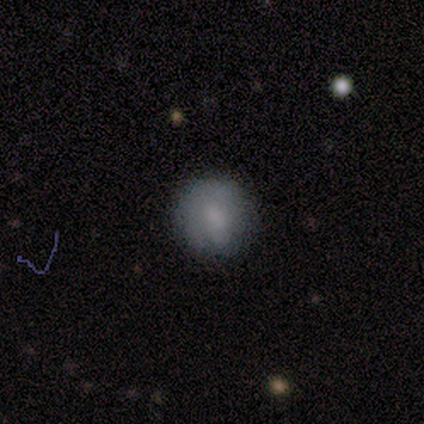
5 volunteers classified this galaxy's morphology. Smooth or featured? smooth (80%)
How rounded? round (75%)
Merging? none (75%)